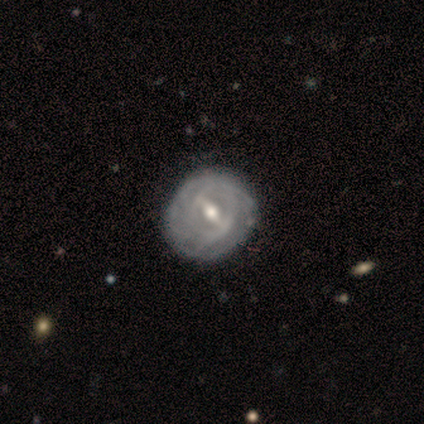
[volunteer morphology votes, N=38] A featured or disk galaxy (92%) with a strong bar (49%), tight (65%) spiral arms (74%) and a moderate central bulge (63%). Merging: none (63%).